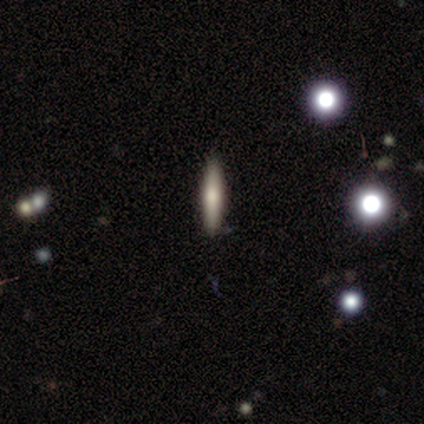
Smooth or featured?
  - smooth: 80% *
  - featured or disk: 20%
  - star or artifact: 0%
How rounded?
  - cigar-shaped: 100% *
  - round: 0%
  - in between: 0%
Merging?
  - none: 100% *
  - minor disturbance: 0%
  - major disturbance: 0%
  - merger: 0%